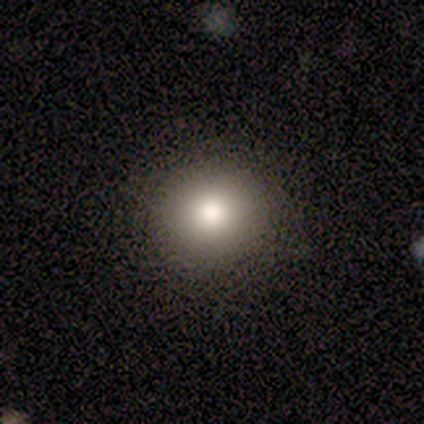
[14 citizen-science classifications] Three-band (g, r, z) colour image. It shows a smooth galaxy with no disk features (86%) that is round (92%). Merging: none (83%).